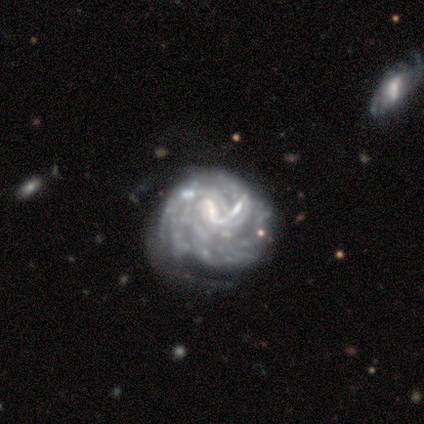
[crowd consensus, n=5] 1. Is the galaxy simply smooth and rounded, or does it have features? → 60% featured or disk, 40% smooth, 0% star or artifact.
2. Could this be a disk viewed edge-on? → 100% no, 0% yes.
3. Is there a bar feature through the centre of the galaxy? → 67% strong, 33% no, 0% weak.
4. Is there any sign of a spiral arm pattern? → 67% yes, 33% no.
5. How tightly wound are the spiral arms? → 50% tight (tied), 50% loose (tied), 0% medium.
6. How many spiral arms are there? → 50% 1 (tied), 50% 3 (tied), 0% 2, 0% 4, 0% more than 4, 0% can't tell.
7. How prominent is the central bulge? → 67% moderate, 33% small, 0% dominant, 0% large, 0% none.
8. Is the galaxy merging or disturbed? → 40% none (tied), 40% minor disturbance (tied), 20% major disturbance, 0% merger.